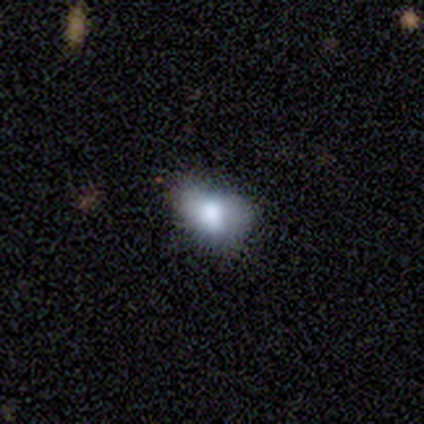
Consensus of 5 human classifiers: Smooth or featured: smooth — 60% (featured or disk — 20%)
How rounded: round — 67% (in between — 33%)
Merging: minor disturbance — 75% (major disturbance — 25%)